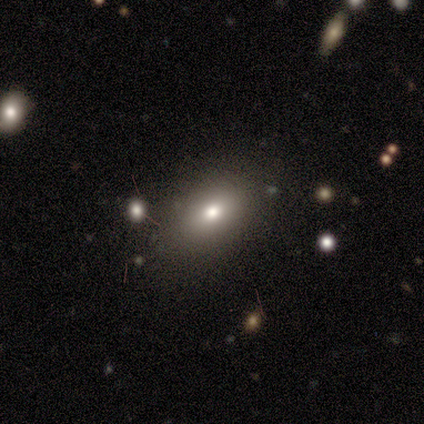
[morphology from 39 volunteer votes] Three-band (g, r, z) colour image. It shows a smooth galaxy with no disk features (67%) that is in between round and cigar-shaped (73%). Merging: none (97%).